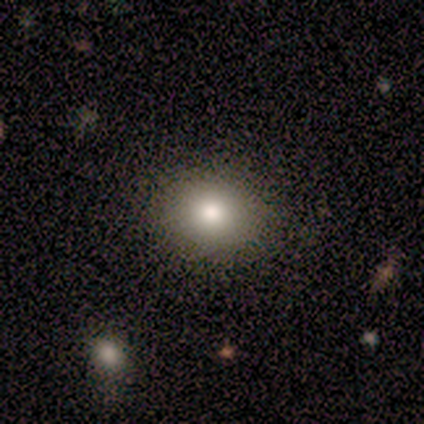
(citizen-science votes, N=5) A smooth galaxy with no disk features (60%) that is in between round and cigar-shaped (67%).

Vote fractions:
- Smooth or featured? smooth: 60% / featured or disk: 20% / star or artifact: 20%
- How rounded? in between: 67% / round: 33% / cigar-shaped: 0%
- Merging? none: 75% / minor disturbance: 25% / major disturbance: 0% / merger: 0%